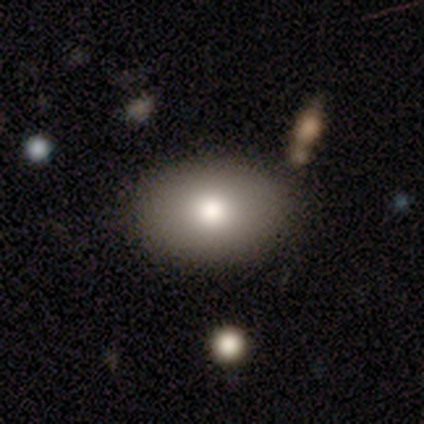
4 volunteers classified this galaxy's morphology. This appears to be a smooth galaxy with no disk features (75%) that is in between round and cigar-shaped (67%). Merging: none (100%).